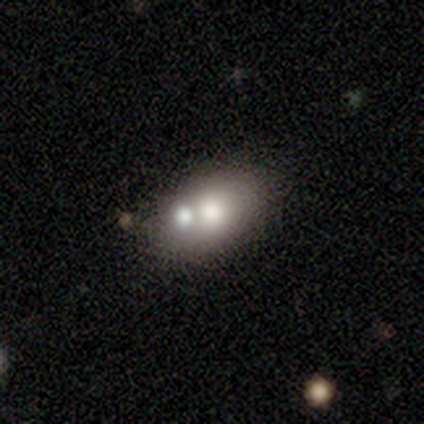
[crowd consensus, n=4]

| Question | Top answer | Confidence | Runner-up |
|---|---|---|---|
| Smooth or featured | featured or disk | 75% | smooth (25%) |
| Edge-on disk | no | 100% | — |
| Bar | no | 100% | — |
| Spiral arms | no | 100% | — |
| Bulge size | moderate | 67% | large (33%) |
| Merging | none | 50% | minor disturbance (25%) |